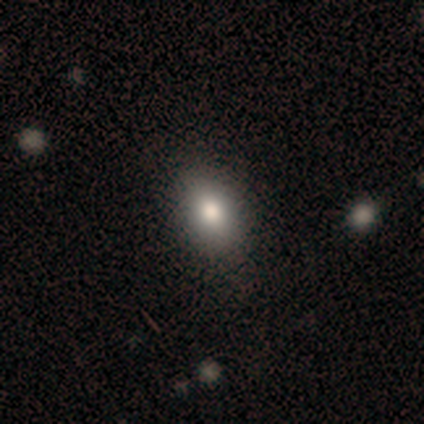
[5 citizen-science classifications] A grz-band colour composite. It shows a smooth galaxy with no disk features (100%) that is in between round and cigar-shaped (80%). Merging: none (100%).